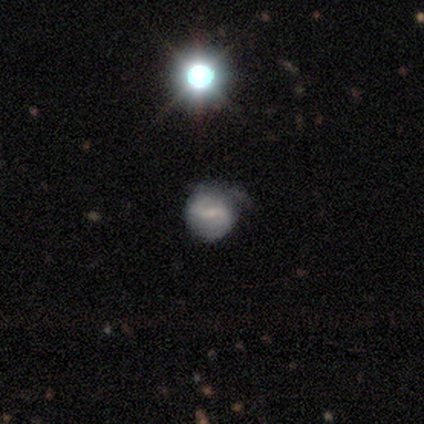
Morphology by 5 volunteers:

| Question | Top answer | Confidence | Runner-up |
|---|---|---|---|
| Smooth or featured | featured or disk | 100% | — |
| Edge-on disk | no | 100% | — |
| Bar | weak | 80% | no (20%) |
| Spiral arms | yes | 100% | — |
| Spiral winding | medium | 80% | tight (20%) |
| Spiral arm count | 1 | 40% | tied: 2 (40%) |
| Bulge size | small | 80% | none (20%) |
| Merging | minor disturbance | 60% | none (40%) |